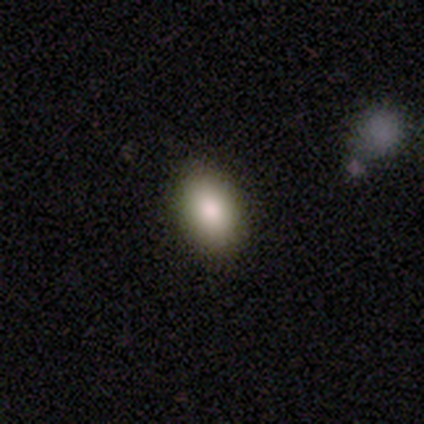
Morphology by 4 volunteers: Volunteers were most divided on "merging": none: 75%, minor disturbance: 25%, major disturbance: 0%, merger: 0%. More confident: smooth or featured — smooth (100%); how rounded — in between (100%).